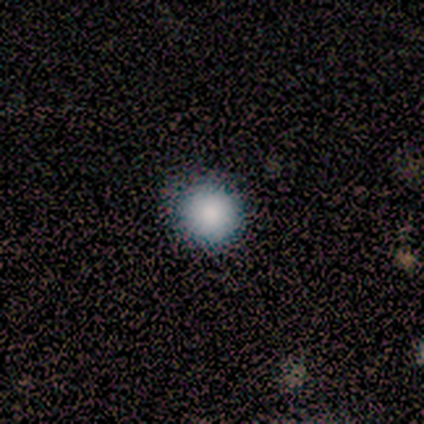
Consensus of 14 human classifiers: Morphology: type=smooth (100%); roundness=round (100%); merging=none (93%).